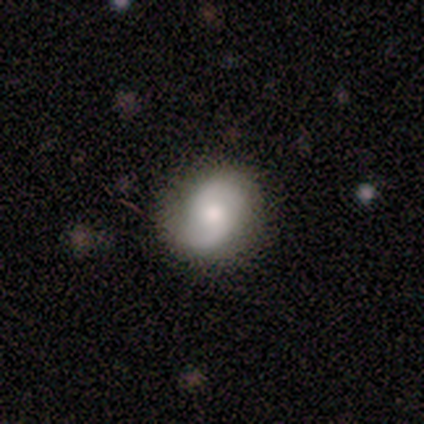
Smooth or featured? smooth (40%, tied with featured or disk)
How rounded? round (50%, tied with in between)
Merging? none (75%)